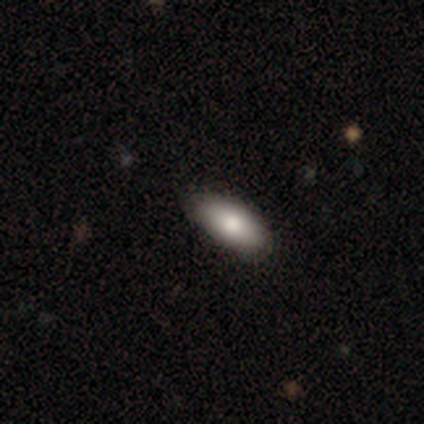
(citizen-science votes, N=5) This appears to be a smooth galaxy with no disk features (80%) that is in between round and cigar-shaped (100%). Merging: none (100%).